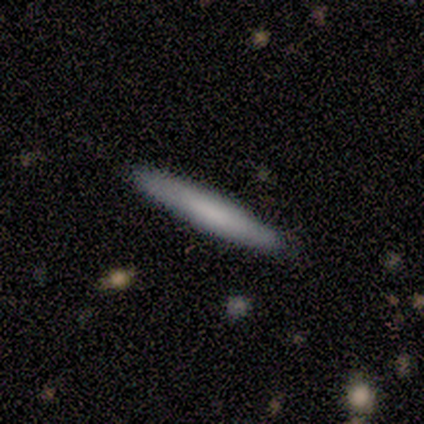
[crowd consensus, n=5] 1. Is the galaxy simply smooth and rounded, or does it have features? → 60% smooth, 40% featured or disk, 0% star or artifact.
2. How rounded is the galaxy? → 100% cigar-shaped, 0% round, 0% in between.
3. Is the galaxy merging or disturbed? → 60% none, 40% minor disturbance, 0% major disturbance, 0% merger.